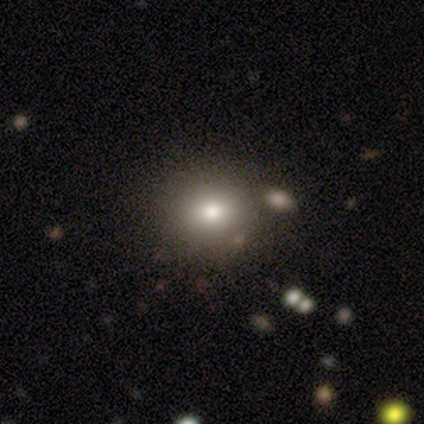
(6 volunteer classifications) Smooth or featured: smooth — 83% (star or artifact — 17%)
How rounded: round — 80% (in between — 20%)
Merging: none — 80% (minor disturbance — 20%)